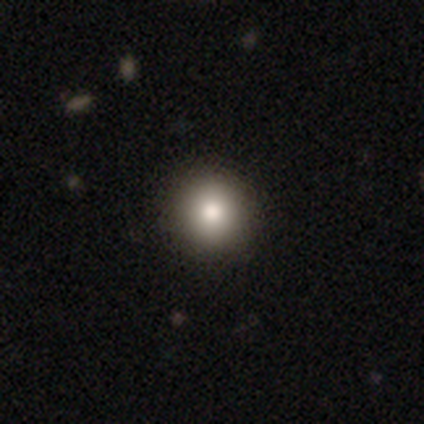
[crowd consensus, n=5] Smooth or featured? 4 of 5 (80%) said smooth. How rounded? 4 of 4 (100%) said round. Merging? 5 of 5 (100%) said none.